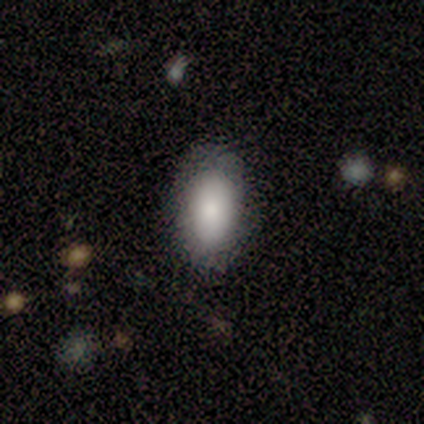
smooth 100%, featured or disk 0%, star or artifact 0%. Down the decision tree: how rounded — in between (100%); merging — none (60%).